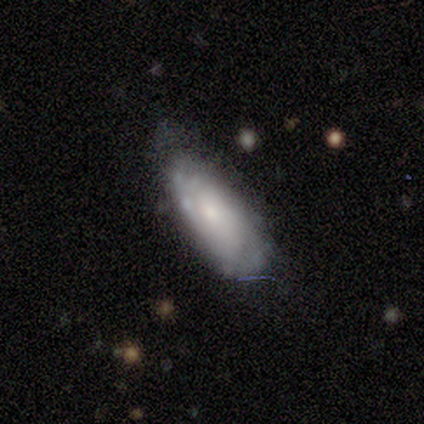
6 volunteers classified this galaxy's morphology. Smooth or featured? 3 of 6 (50%, tied with featured or disk) said smooth. How rounded? 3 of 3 (100%) said in between. Merging? 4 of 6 (67%) said minor disturbance.